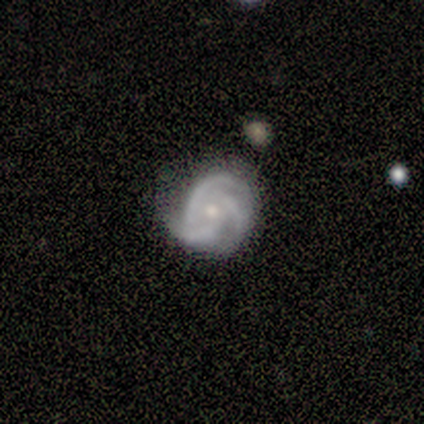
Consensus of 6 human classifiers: This is clearly a featured or disk galaxy (100%). It is clearly not viewed edge-on (100%). Bar: likely no (67%). Spiral arm pattern: clearly yes (100%). Spiral arm count: clearly 3 (100%). Spiral winding: possibly tight (50%, tied with medium). Central bulge: likely small (67%). Merging: likely none (67%).